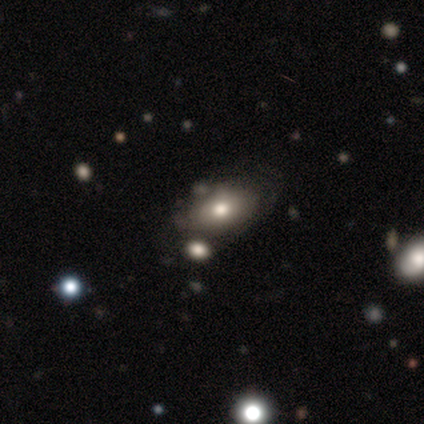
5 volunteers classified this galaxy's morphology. Smooth or featured: smooth — 60% (star or artifact — 40%)
How rounded: in between — 100%
Merging: none — 67% (minor disturbance — 33%)